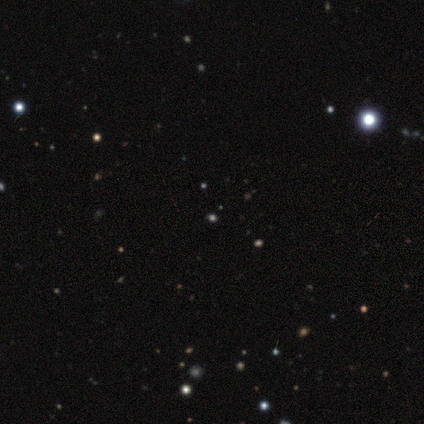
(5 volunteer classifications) smooth-or-featured: smooth: 60% | star or artifact: 40% | featured or disk: 0%
  how-rounded: round: 100% | in between: 0% | cigar-shaped: 0%
  merging: none: 100% | minor disturbance: 0% | major disturbance: 0% | merger: 0%